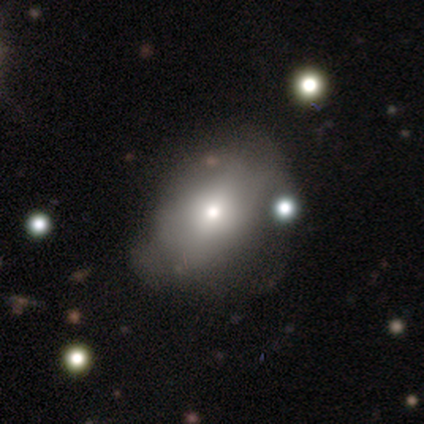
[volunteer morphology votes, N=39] smooth-or-featured: smooth: 62% | featured or disk: 38% | star or artifact: 0%
  how-rounded: in between: 67% | round: 33% | cigar-shaped: 0%
  merging: minor disturbance: 33% | none: 31% | major disturbance: 13% | merger: 8%